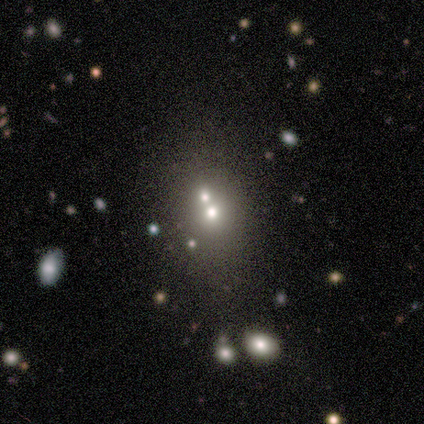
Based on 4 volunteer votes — Smooth or featured?
  - smooth: 50% * (tied)
  - featured or disk: 50% * (tied)
  - star or artifact: 0%
How rounded?
  - round: 50% * (tied)
  - in between: 50% * (tied)
  - cigar-shaped: 0%
Merging?
  - none: 50% * (tied)
  - merger: 50% * (tied)
  - minor disturbance: 0%
  - major disturbance: 0%